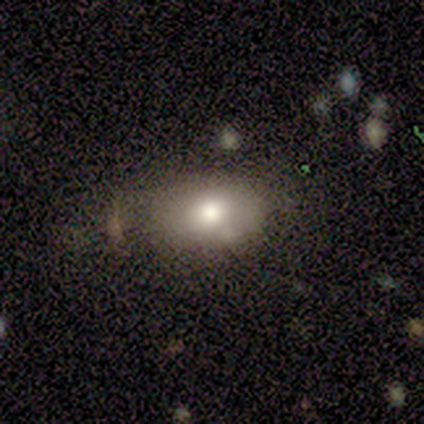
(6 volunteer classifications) This is clearly a smooth galaxy (100%). How rounded: clearly in between (83%). Merging: possibly none (50%).